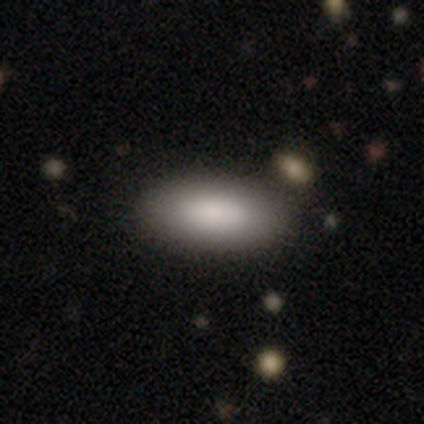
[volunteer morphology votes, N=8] smooth 88%, featured or disk 12%, star or artifact 0%. Down the decision tree: how rounded — in between (100%); merging — none (88%).